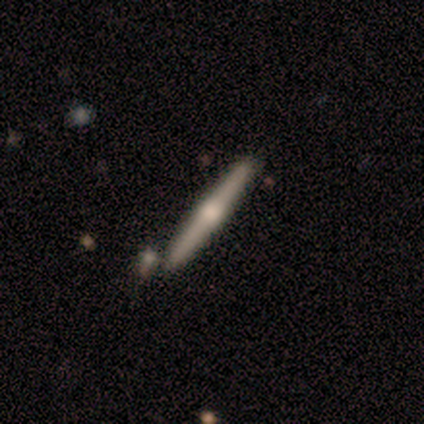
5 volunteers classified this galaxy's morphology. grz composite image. It shows a featured or disk galaxy (100%) viewed edge-on (100%) with a rounded central bulge (100%). Merging: none (100%).